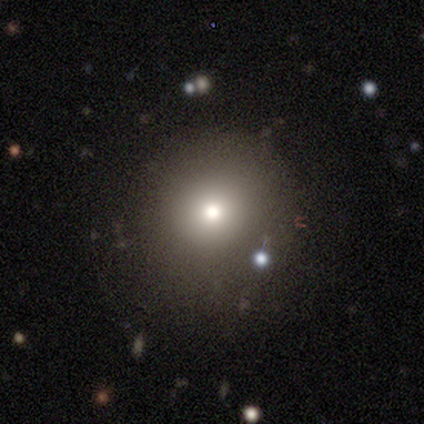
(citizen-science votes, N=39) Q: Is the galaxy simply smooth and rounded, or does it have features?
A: smooth — 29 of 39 (74%).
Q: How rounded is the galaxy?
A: round — 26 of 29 (90%).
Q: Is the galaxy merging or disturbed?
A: none — 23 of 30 (77%).